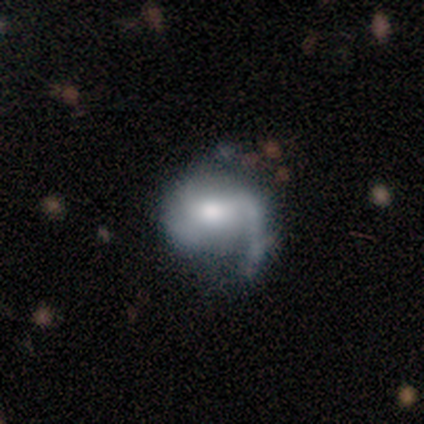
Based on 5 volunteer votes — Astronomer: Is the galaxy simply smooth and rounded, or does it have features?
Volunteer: featured or disk — 100%.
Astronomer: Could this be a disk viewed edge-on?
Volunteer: no — 100%.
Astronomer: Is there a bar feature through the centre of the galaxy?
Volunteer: weak — 40%, tied with no at 40%.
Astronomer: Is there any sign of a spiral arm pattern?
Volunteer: yes — 100%.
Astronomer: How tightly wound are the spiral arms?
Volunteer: medium — 40%, tied with loose at 40%.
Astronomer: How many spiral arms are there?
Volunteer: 1 — 60% (runner-up: 2, 40%).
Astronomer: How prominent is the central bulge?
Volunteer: moderate — 60%.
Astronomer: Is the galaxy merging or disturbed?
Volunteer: none — 60%.